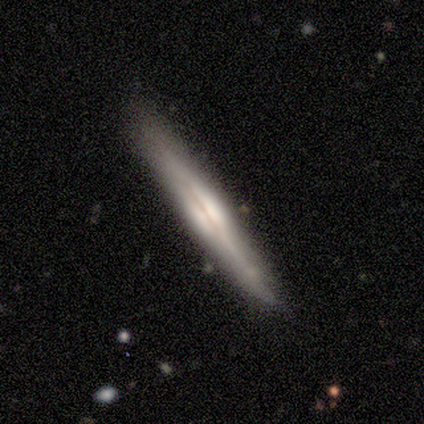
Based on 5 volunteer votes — Smooth or featured? featured or disk (80%)
Edge-on disk? yes (75%)
Edge-on bulge? rounded (100%)
Merging? none (60%)